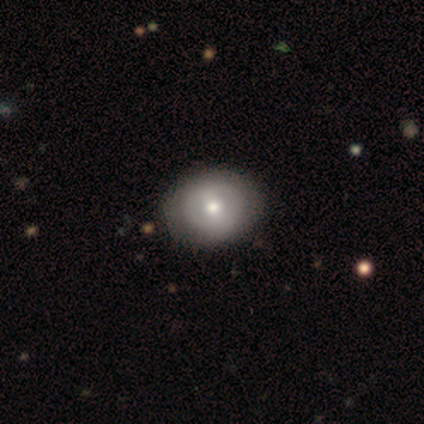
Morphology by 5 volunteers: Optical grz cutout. It shows a smooth galaxy with no disk features (60%) that is in between round and cigar-shaped (67%). Merging: none (80%).